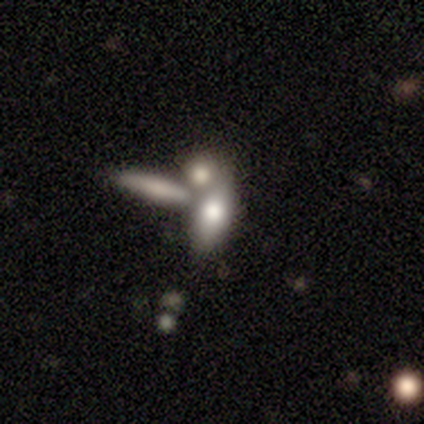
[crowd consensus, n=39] Smooth or featured? 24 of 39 (62%) said smooth. How rounded? 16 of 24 (67%) said in between. Merging? 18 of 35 (51%) said merger.